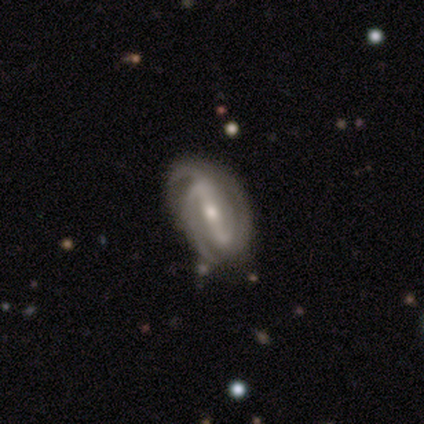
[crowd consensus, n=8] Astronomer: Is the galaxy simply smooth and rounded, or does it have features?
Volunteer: featured or disk — 100%.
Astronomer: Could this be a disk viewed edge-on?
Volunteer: no — 100%.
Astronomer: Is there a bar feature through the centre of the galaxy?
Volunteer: strong — 62%.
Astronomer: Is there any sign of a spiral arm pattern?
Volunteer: yes — 100%.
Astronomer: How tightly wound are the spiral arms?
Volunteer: tight — 75%.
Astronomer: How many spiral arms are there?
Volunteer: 2 — 38% (runner-up: 3, 25%).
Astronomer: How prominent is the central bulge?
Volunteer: small — 50% (runner-up: moderate, 38%).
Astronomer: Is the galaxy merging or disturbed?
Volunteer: none — 62%.